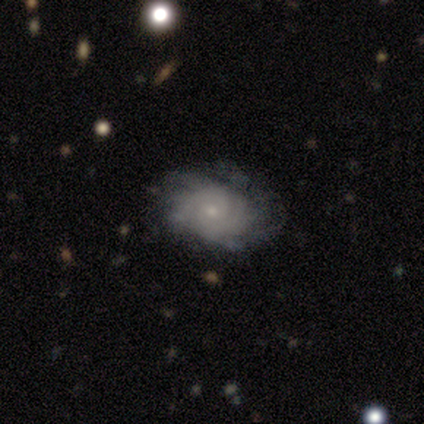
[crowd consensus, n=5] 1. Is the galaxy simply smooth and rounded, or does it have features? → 80% featured or disk, 20% smooth, 0% star or artifact.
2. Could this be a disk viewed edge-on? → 100% no, 0% yes.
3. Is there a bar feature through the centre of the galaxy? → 75% no, 25% weak, 0% strong.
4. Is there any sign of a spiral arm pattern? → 100% yes, 0% no.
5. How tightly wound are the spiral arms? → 50% tight (tied), 50% medium (tied), 0% loose.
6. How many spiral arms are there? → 50% 2, 25% 3, 25% 4, 0% 1, 0% more than 4, 0% can't tell.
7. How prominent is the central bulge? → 100% small, 0% dominant, 0% large, 0% moderate, 0% none.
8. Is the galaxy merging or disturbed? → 80% none, 20% minor disturbance, 0% major disturbance, 0% merger.